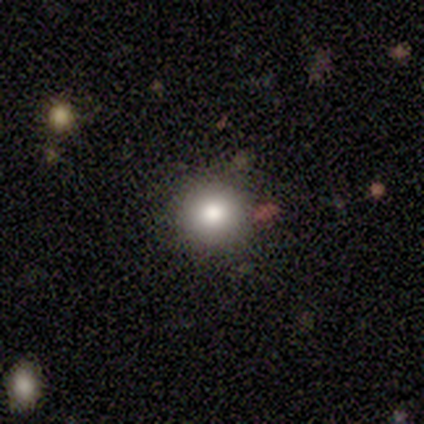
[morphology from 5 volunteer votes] A smooth galaxy with no disk features (60%) that is round (100%).

Vote fractions:
- Smooth or featured? smooth: 60% / star or artifact: 40% / featured or disk: 0%
- How rounded? round: 100% / in between: 0% / cigar-shaped: 0%
- Merging? none: 100% / minor disturbance: 0% / major disturbance: 0% / merger: 0%